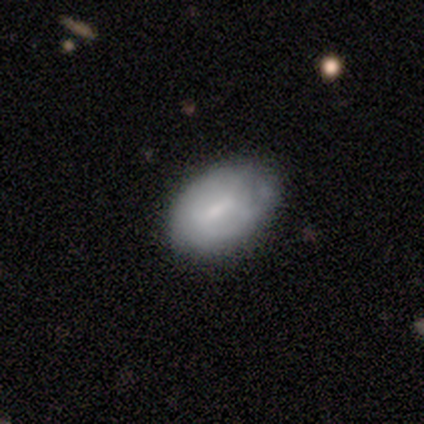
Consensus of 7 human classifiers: Volunteers were most divided on "bar" (2-way tie): weak: 50%, no: 50%, strong: 0%; "bulge size" (2-way tie): moderate: 50%, small: 50%, dominant: 0%, large: 0%, none: 0%. More confident: edge-on disk — no (100%); spiral arms — no (75%); merging — none (71%); smooth or featured — featured or disk (57%).